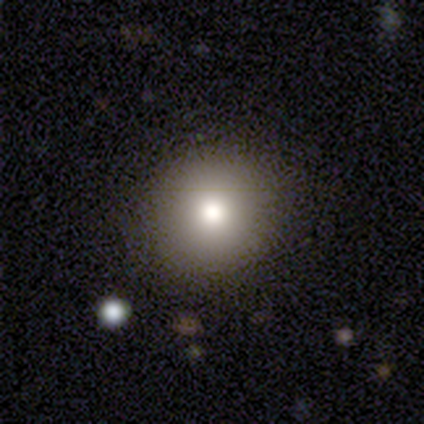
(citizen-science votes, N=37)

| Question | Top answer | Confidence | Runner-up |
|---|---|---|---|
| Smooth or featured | smooth | 59% | star or artifact (22%) |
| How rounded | round | 82% | in between (18%) |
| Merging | none | 90% | minor disturbance (7%) |